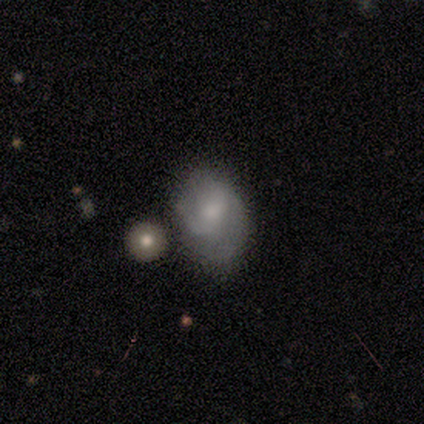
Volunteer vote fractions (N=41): Overall: featured or disk (49%; smooth 46%). Edge-on disk: no (95%). Bar: no (63%; weak 37%). Spiral arms: yes (89%). Spiral arm count: 2 (53%; 1 29%). Spiral winding: medium (53%; tight 29%). Bulge size: small (47%; moderate 26%). Merging: none (33%; minor disturbance 23%).